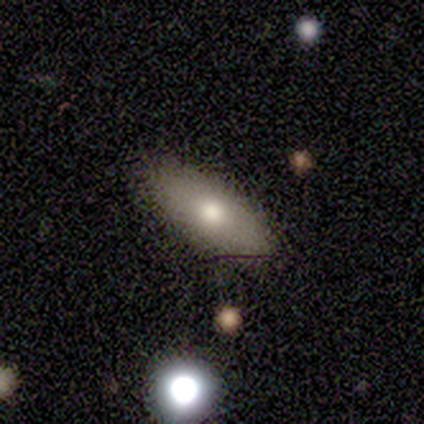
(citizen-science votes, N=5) smooth_or_featured: smooth (p=0.80) [alt: featured or disk p=0.20]
how_rounded: in between (p=1.00)
merging: none (p=1.00)